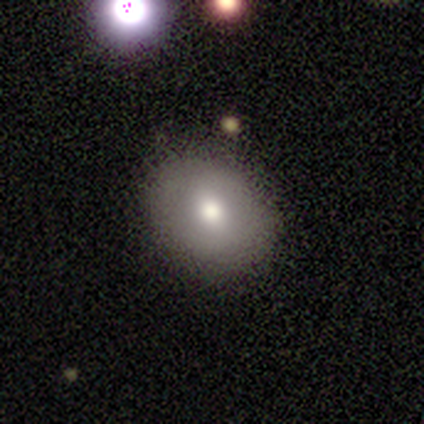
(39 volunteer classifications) Q: Smooth or featured?
A: smooth (69%); runner-up: star or artifact (21%)
Q: How rounded?
A: round (52%); runner-up: in between (48%)
Q: Merging?
A: none (87%); runner-up: minor disturbance (10%)